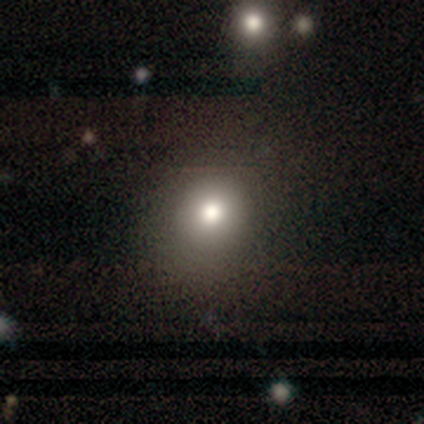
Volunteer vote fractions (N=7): Overall: smooth (100%). How rounded: round (71%). Merging: none (57%; minor disturbance 29%).